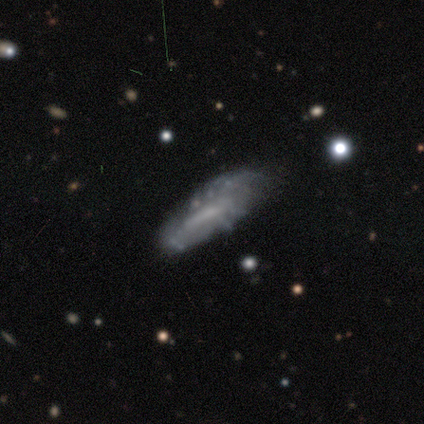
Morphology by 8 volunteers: Q: Smooth or featured?
A: smooth (62%); runner-up: featured or disk (25%)
Q: How rounded?
A: cigar-shaped (80%); runner-up: in between (20%)
Q: Merging?
A: none (57%); runner-up: major disturbance (29%)